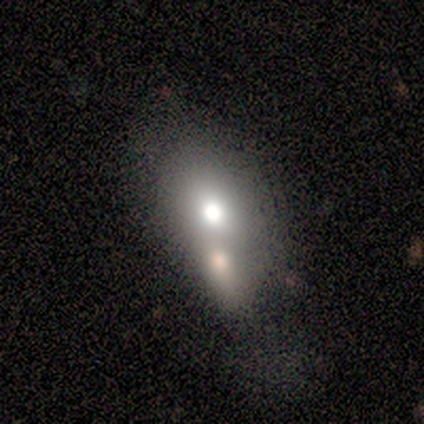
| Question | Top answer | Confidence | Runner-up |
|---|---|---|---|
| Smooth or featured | smooth | 100% | — |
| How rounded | in between | 57% | round (43%) |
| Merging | merger | 57% | none (29%) |